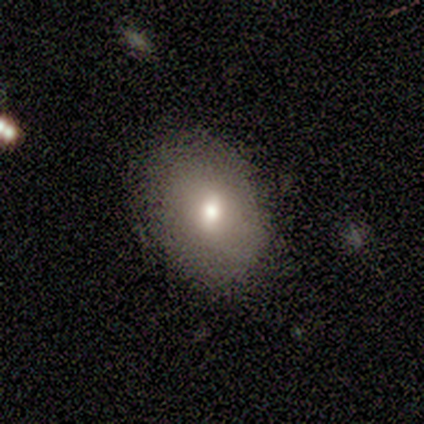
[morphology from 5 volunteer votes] A smooth galaxy with no disk features (100%) that is in between round and cigar-shaped (100%).

Vote fractions:
- Smooth or featured? smooth: 100% / featured or disk: 0% / star or artifact: 0%
- How rounded? in between: 100% / round: 0% / cigar-shaped: 0%
- Merging? none: 80% / minor disturbance: 20% / major disturbance: 0% / merger: 0%